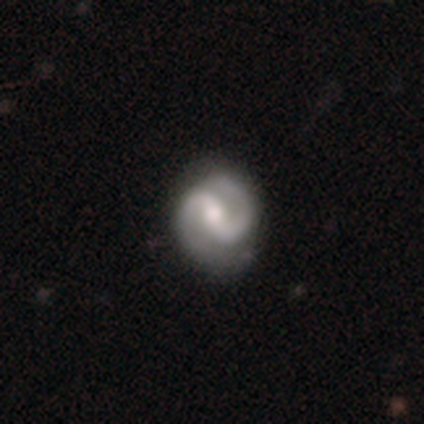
smooth_or_featured: featured or disk (p=0.80) [alt: smooth p=0.20]
disk_edge_on: no (p=1.00)
bar: weak (p=0.50) [alt: strong p=0.25]
has_spiral_arms: yes (p=1.00)
spiral_winding: tight (p=0.75) [alt: medium p=0.25]
spiral_arm_count: 2 (p=1.00)
bulge_size: moderate (p=0.75) [alt: small p=0.25]
merging: none (p=0.80) [alt: minor disturbance p=0.20]